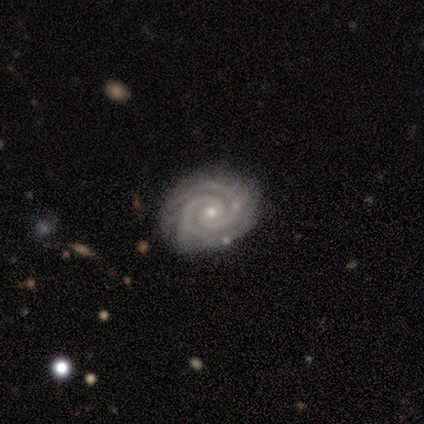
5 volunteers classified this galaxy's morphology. type=featured or disk (100%); edge-on=no (100%); bar=no (100%); spiral arms=yes (100%); winding=tight (100%); arm count=2 (100%); bulge=small (100%); merging=none (100%).